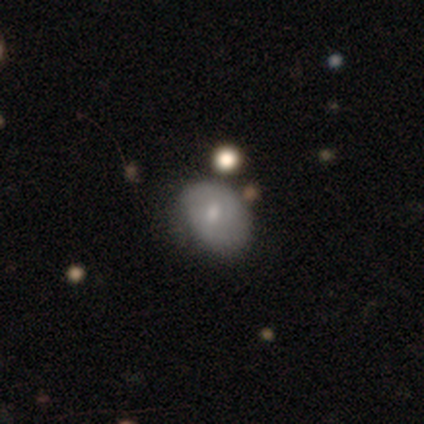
Smooth or featured? 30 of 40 (75%) said smooth. How rounded? 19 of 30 (63%) said in between. Merging? 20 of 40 (50%) said none.